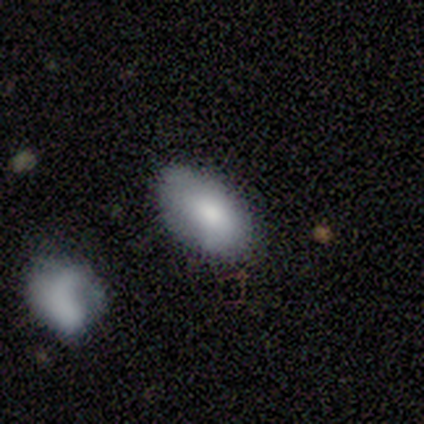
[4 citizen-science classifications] Smooth or featured? 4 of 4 (100%) said smooth. How rounded? 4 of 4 (100%) said in between. Merging? 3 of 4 (75%) said none.